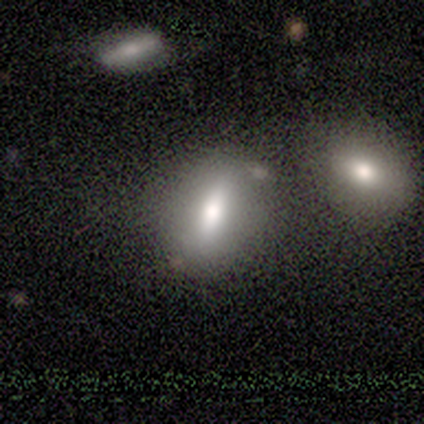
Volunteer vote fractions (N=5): Morphology: type=smooth (80%); roundness=in between (75%); merging=none (75%).